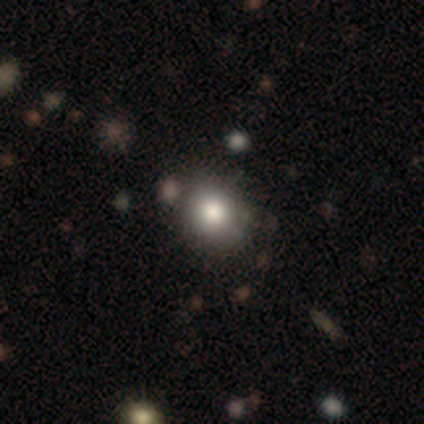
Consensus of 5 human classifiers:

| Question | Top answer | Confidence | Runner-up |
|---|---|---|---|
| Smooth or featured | smooth | 100% | — |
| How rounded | round | 60% | in between (40%) |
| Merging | none | 100% | — |